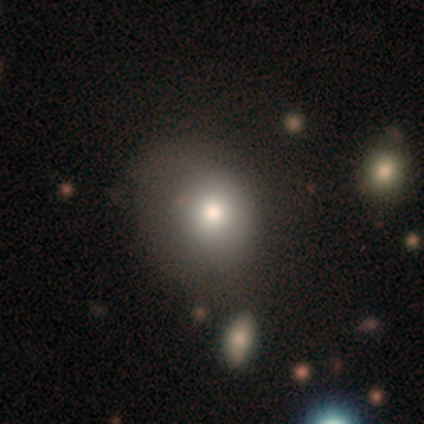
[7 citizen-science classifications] Smooth or featured? smooth (71%)
How rounded? round (80%)
Merging? none (71%)